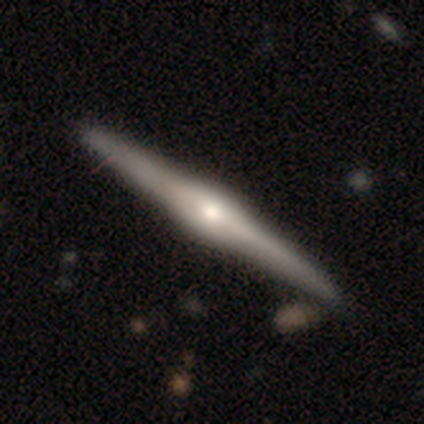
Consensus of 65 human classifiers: Overall: featured or disk (91%). Edge-on disk: yes (98%). Edge-on bulge: rounded (81%). Merging: none (81%).